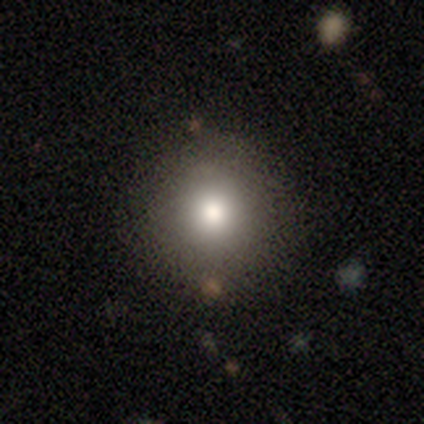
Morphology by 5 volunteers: Smooth or featured? smooth (100%)
How rounded? round (100%)
Merging? none (100%)